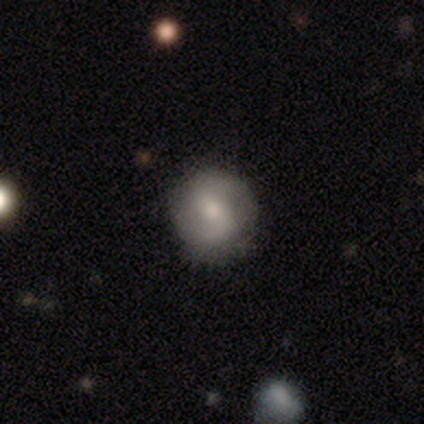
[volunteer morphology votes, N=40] A featured or disk galaxy (57%) with a weak bar (48%), 2 (91%) loose (45%) spiral arms (96%) and a small central bulge (61%). Merging: none (67%).